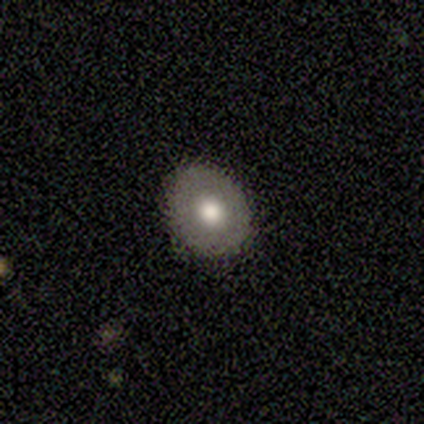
A smooth galaxy with no disk features (60%) that is round (67%).

Vote fractions:
- Smooth or featured? smooth: 60% / featured or disk: 40% / star or artifact: 0%
- How rounded? round: 67% / in between: 33% / cigar-shaped: 0%
- Merging? none: 100% / minor disturbance: 0% / major disturbance: 0% / merger: 0%